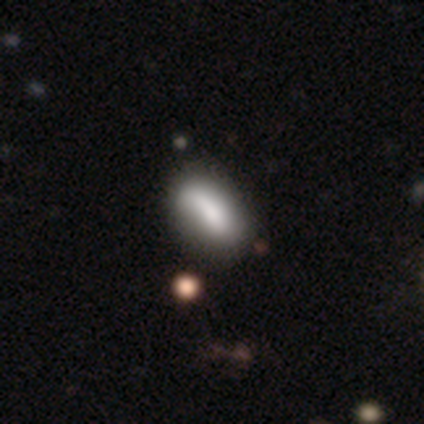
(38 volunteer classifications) This is likely a smooth galaxy (76%). How rounded: likely in between (69%). Merging: possibly none (46%).